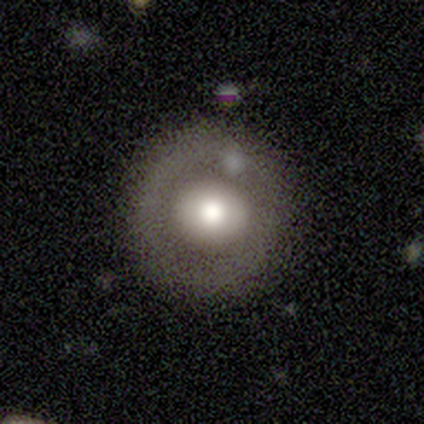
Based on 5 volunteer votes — Smooth or featured: smooth — 40% (tied with featured or disk — 40%)
How rounded: round — 100%
Merging: none — 75% (major disturbance — 25%)